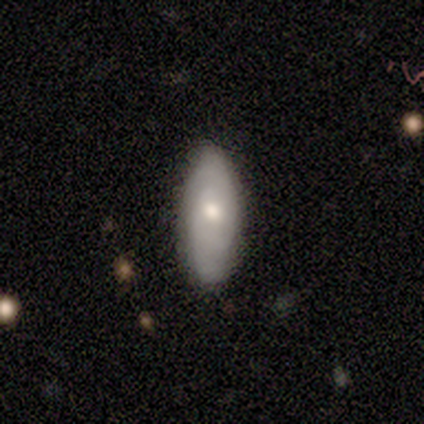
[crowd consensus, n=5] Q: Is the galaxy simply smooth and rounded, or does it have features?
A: smooth — 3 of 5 (60%).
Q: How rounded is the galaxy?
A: in between — 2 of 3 (67%).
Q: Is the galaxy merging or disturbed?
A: none — 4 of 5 (80%).